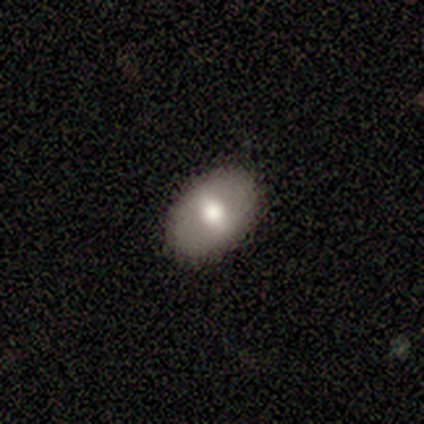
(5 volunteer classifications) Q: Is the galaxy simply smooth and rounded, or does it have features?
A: featured or disk — 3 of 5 (60%).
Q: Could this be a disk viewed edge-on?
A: no — 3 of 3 (100%).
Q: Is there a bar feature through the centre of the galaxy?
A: strong — 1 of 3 (33%, tied with weak and no).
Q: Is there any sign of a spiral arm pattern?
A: no — 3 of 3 (100%).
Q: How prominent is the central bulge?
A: moderate — 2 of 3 (67%).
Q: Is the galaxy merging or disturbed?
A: none — 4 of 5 (80%).